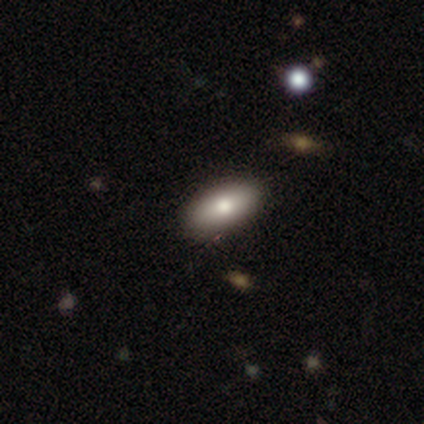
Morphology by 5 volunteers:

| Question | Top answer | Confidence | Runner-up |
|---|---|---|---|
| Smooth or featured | smooth | 100% | — |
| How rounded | in between | 60% | cigar-shaped (40%) |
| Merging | none | 100% | — |